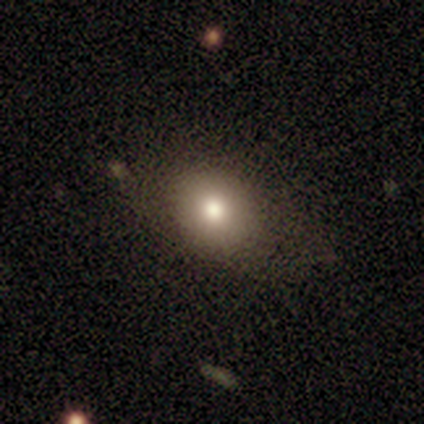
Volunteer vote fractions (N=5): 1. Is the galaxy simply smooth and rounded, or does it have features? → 80% smooth, 20% featured or disk, 0% star or artifact.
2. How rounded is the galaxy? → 75% round, 25% in between, 0% cigar-shaped.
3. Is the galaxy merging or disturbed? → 100% none, 0% minor disturbance, 0% major disturbance, 0% merger.